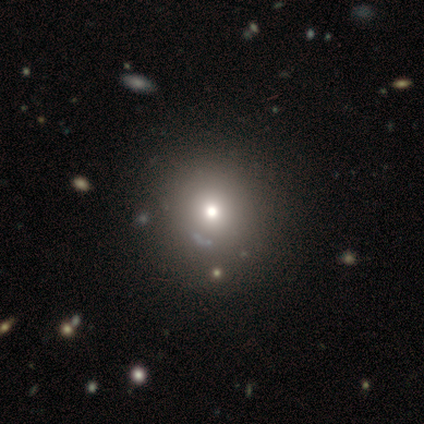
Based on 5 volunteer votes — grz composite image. It shows a star or artifact, not a galaxy (60%).